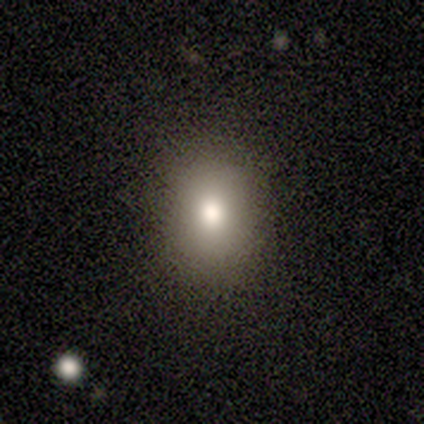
This appears to be a smooth galaxy with no disk features (79%) that is in between round and cigar-shaped (57%). Merging: none (91%).